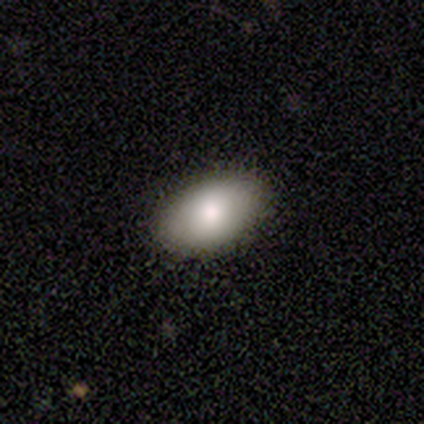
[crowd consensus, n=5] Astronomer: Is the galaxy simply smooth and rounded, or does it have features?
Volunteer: smooth — 80%.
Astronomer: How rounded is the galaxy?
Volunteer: in between — 75%.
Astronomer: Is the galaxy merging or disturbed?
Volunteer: none — 100%.